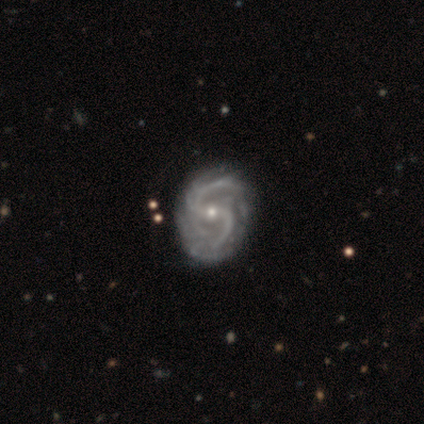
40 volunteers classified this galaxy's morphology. Volunteers were most divided on "bar": weak: 50%, no: 26%, strong: 24%. More confident: smooth or featured — featured or disk (98%); edge-on disk — no (97%); spiral arms — yes (95%); spiral arm count — 2 (69%); spiral winding — medium (67%); bulge size — small (63%); merging — none (50%).